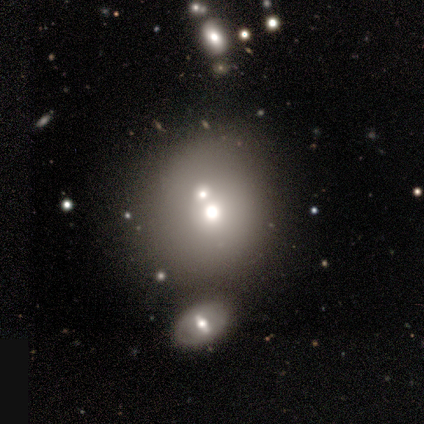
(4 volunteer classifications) Overall: smooth (50%; featured or disk 25%). How rounded: round (100%). Merging: none (100%).